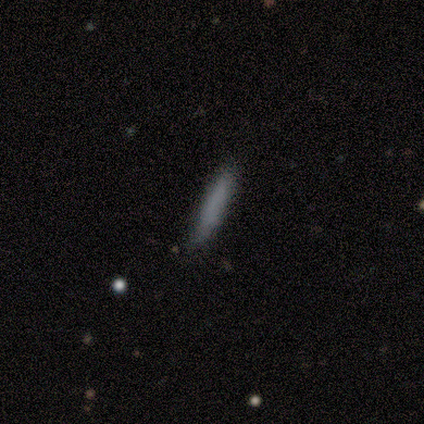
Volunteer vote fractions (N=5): smooth 80%, featured or disk 20%, star or artifact 0%. Down the decision tree: how rounded — cigar-shaped (100%); merging — none (100%).